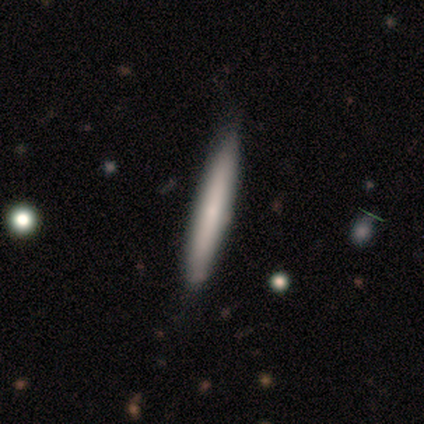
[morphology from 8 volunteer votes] A smooth galaxy with no disk features (62%) that is cigar-shaped (100%).

Vote fractions:
- Smooth or featured? smooth: 62% / featured or disk: 25% / star or artifact: 12%
- How rounded? cigar-shaped: 100% / round: 0% / in between: 0%
- Merging? none: 86% / minor disturbance: 14% / major disturbance: 0% / merger: 0%